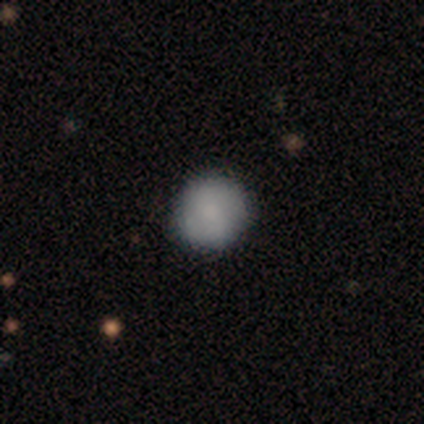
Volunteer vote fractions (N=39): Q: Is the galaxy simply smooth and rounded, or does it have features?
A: smooth — 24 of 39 (62%).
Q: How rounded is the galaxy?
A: round — 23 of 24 (96%).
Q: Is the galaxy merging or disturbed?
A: none — 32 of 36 (89%).